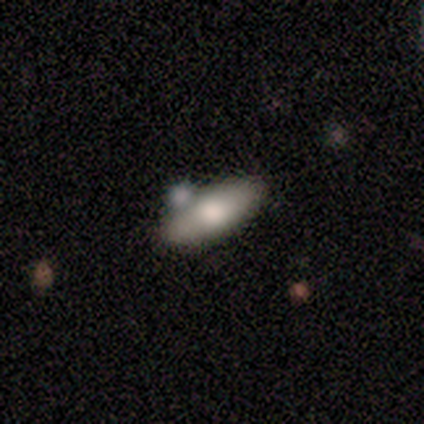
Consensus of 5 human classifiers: Smooth or featured?
  - featured or disk: 60% *
  - smooth: 40%
  - star or artifact: 0%
Edge-on disk?
  - no: 67% *
  - yes: 33%
Bar?
  - no: 100% *
  - strong: 0%
  - weak: 0%
Spiral arms?
  - no: 100% *
  - yes: 0%
Bulge size?
  - large: 100% *
  - dominant: 0%
  - moderate: 0%
  - small: 0%
  - none: 0%
Merging?
  - none: 60% *
  - merger: 40%
  - minor disturbance: 0%
  - major disturbance: 0%